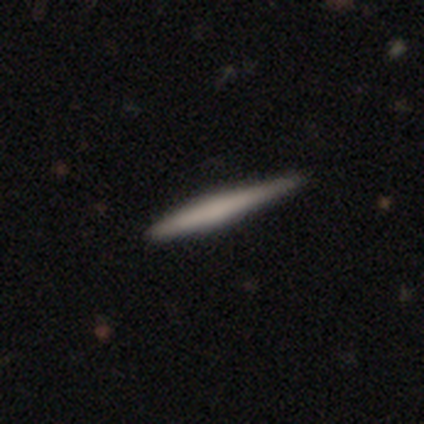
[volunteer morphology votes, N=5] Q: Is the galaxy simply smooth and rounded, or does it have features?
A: smooth — 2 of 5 (40%, tied with featured or disk).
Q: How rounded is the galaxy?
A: cigar-shaped — 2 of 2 (100%).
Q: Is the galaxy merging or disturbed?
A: minor disturbance — 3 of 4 (75%).